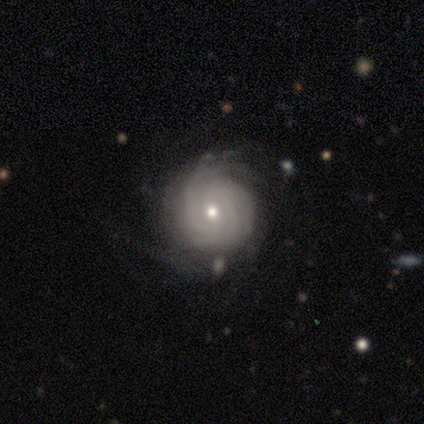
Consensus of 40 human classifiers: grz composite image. It shows a featured or disk galaxy (65%) with no bar (76%), tight (73%) spiral arms (88%) and a moderate central bulge (52%). Merging: none (58%).